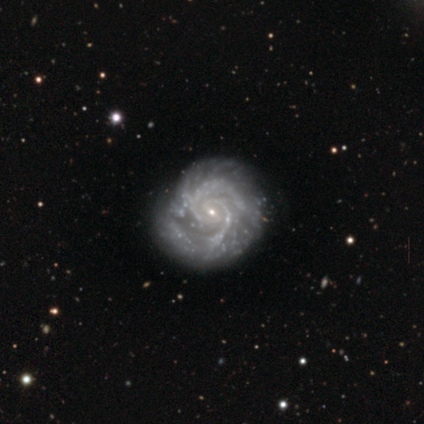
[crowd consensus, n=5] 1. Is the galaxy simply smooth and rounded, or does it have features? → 100% featured or disk, 0% smooth, 0% star or artifact.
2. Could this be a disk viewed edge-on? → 100% no, 0% yes.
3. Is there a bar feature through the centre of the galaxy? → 40% weak (tied), 40% no (tied), 20% strong.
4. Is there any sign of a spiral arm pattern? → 100% yes, 0% no.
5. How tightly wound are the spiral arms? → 60% tight, 40% medium, 0% loose.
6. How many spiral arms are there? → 60% 2, 40% more than 4, 0% 1, 0% 3, 0% 4, 0% can't tell.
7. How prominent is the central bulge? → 100% small, 0% dominant, 0% large, 0% moderate, 0% none.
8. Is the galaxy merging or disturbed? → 80% none, 20% minor disturbance, 0% major disturbance, 0% merger.